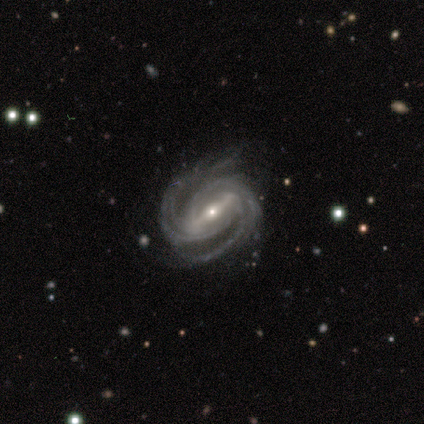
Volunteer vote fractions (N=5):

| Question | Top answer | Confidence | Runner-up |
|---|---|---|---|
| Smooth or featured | featured or disk | 100% | — |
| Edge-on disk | no | 100% | — |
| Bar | strong | 80% | weak (20%) |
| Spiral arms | yes | 100% | — |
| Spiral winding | tight | 60% | medium (20%) |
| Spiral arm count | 2 | 60% | 3 (40%) |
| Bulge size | moderate | 60% | small (40%) |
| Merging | none | 100% | — |